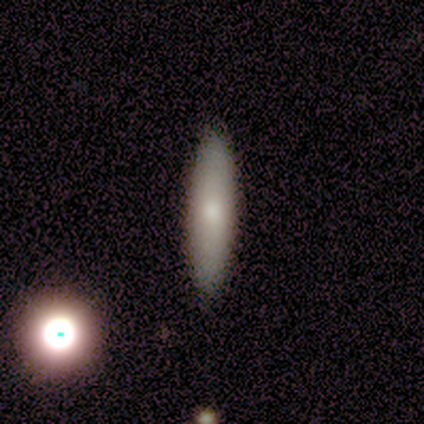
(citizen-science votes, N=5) A smooth galaxy with no disk features (100%) that is cigar-shaped (60%).

Vote fractions:
- Smooth or featured? smooth: 100% / featured or disk: 0% / star or artifact: 0%
- How rounded? cigar-shaped: 60% / round: 20% / in between: 20%
- Merging? none: 60% / minor disturbance: 40% / major disturbance: 0% / merger: 0%